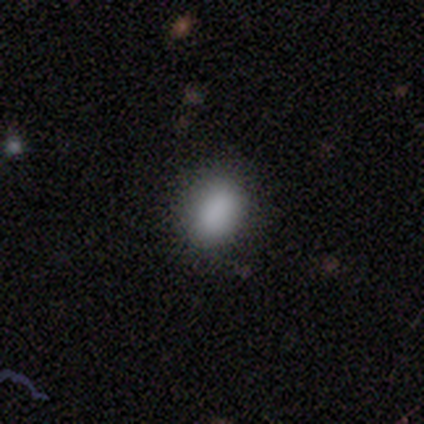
Smooth or featured? smooth (100%)
How rounded? in between (78%)
Merging? none (89%)